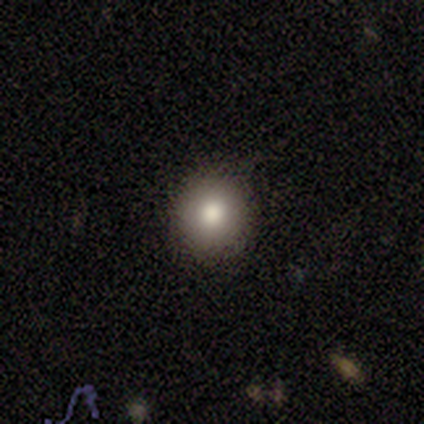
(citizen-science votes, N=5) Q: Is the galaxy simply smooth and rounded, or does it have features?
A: smooth — 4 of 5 (80%).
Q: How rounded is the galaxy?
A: round — 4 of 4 (100%).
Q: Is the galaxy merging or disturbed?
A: none — 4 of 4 (100%).